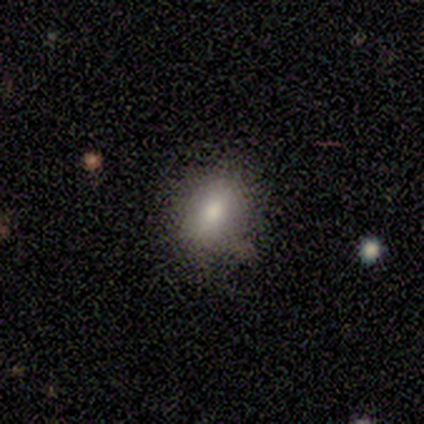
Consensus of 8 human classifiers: This is clearly a smooth galaxy (100%). How rounded: likely in between (62%). Merging: likely none (75%).